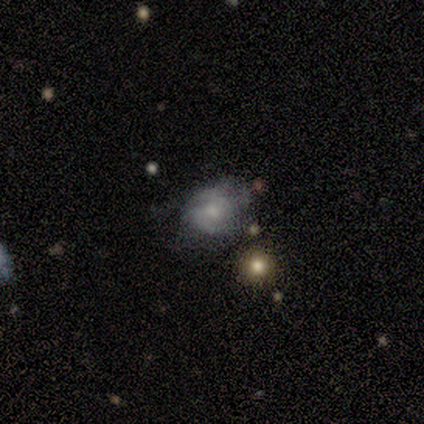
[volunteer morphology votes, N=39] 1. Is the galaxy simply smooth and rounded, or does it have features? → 49% featured or disk, 38% smooth, 13% star or artifact.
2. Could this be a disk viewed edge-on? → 95% no, 5% yes.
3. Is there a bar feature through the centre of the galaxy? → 61% no, 33% weak, 6% strong.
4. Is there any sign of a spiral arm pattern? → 78% yes, 22% no.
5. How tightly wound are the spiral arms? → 50% medium, 29% tight, 21% loose.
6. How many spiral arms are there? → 71% 2, 21% can't tell, 7% 1, 0% 3, 0% 4, 0% more than 4.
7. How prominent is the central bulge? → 50% small, 39% moderate, 11% none, 0% dominant, 0% large.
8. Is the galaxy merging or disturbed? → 59% none, 24% minor disturbance, 9% major disturbance, 9% merger.